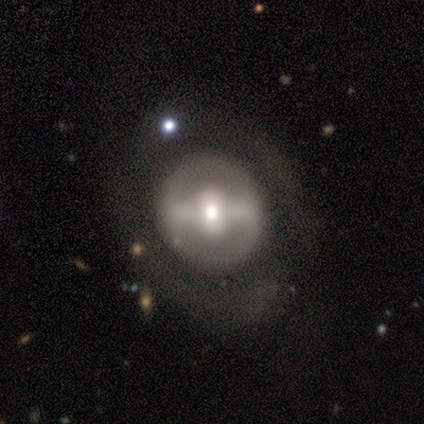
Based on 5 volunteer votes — Smooth or featured? 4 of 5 (80%) said featured or disk. Edge-on disk? 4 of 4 (100%) said no. Bar? 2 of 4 (50%, tied with no) said strong. Spiral arms? 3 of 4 (75%) said no. Bulge size? 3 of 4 (75%) said moderate. Merging? 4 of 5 (80%) said none.